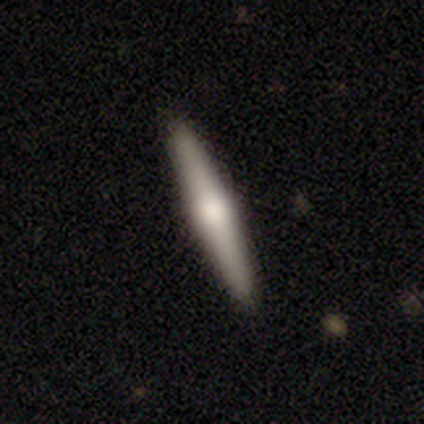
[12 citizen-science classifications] Smooth or featured? featured or disk (58%)
Edge-on disk? yes (100%)
Edge-on bulge? rounded (71%)
Merging? none (73%)